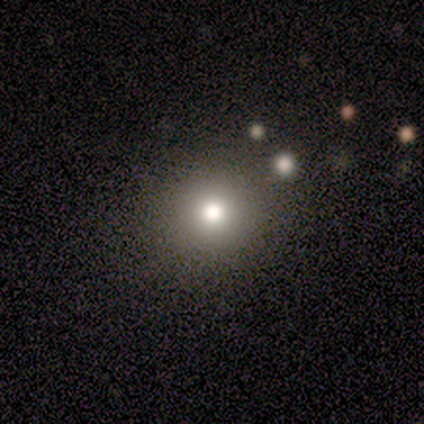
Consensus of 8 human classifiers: smooth-or-featured: smooth: 100% | featured or disk: 0% | star or artifact: 0%
  how-rounded: round: 88% | in between: 12% | cigar-shaped: 0%
  merging: none: 88% | minor disturbance: 12% | major disturbance: 0% | merger: 0%